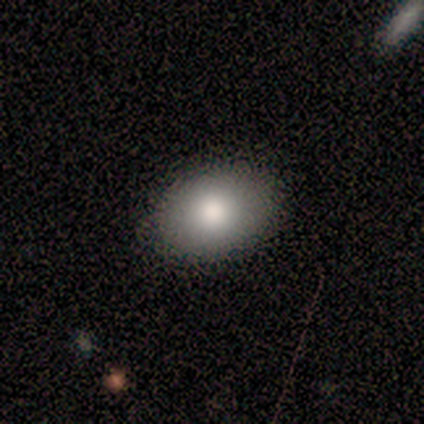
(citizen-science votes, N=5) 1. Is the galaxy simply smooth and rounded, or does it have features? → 80% smooth, 20% star or artifact, 0% featured or disk.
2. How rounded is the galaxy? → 75% in between, 25% round, 0% cigar-shaped.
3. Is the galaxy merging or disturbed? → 75% none, 25% minor disturbance, 0% major disturbance, 0% merger.